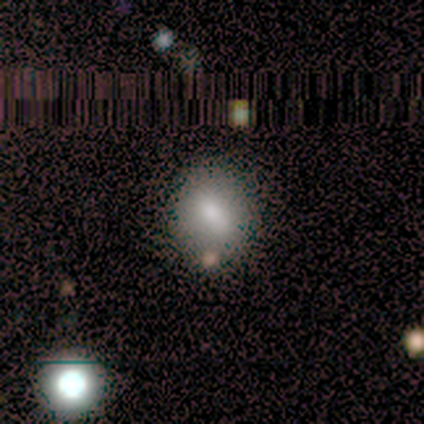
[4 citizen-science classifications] This is likely a smooth galaxy (75%). How rounded: likely in between (67%). Merging: clearly none (100%).